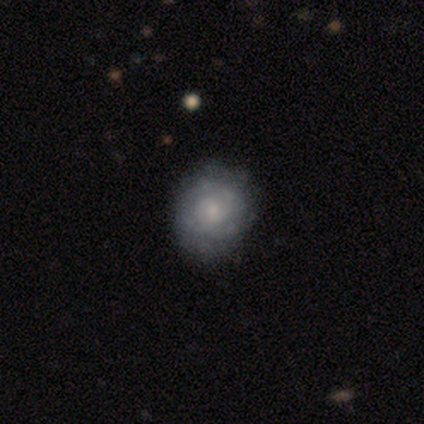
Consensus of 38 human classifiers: A featured or disk galaxy (68%) with no bar (85%), no spiral arms (62%) and a moderate central bulge (38%, tied with small).

Vote fractions:
- Smooth or featured? featured or disk: 68% / smooth: 26% / star or artifact: 5%
- Edge-on disk? no: 100% / yes: 0%
- Bar? no: 85% / weak: 12% / strong: 4%
- Spiral arms? no: 62% / yes: 38%
- Bulge size? moderate: 38% (tied) / small: 38% (tied) / none: 19% / large: 4% / dominant: 0%
- Merging? none: 42% / minor disturbance: 22% / major disturbance: 8% / merger: 0%